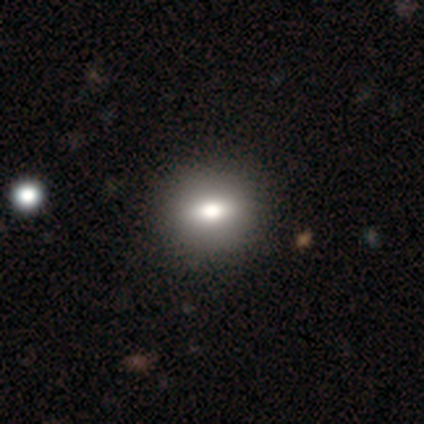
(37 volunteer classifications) This is likely a smooth galaxy (76%). How rounded: possibly round (46%, tied with in between). Merging: likely none (61%).